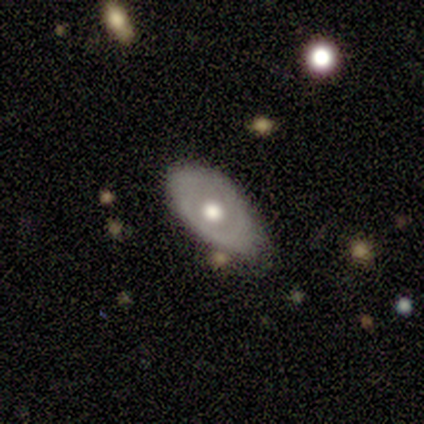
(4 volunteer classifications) Smooth or featured: featured or disk — 75% (smooth — 25%)
Edge-on disk: no — 100%
Bar: no — 67% (weak — 33%)
Spiral arms: no — 100%
Bulge size: moderate — 100%
Merging: minor disturbance — 75% (none — 25%)